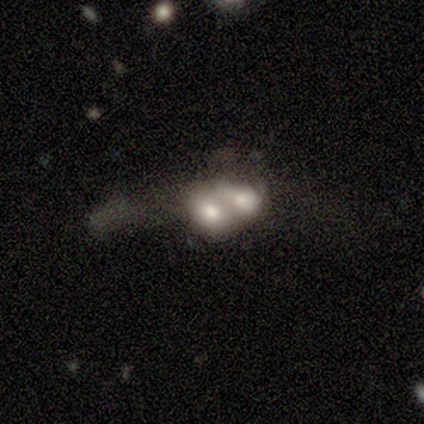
Smooth or featured? 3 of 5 (60%) said smooth. How rounded? 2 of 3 (67%) said round. Merging? 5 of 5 (100%) said merger.